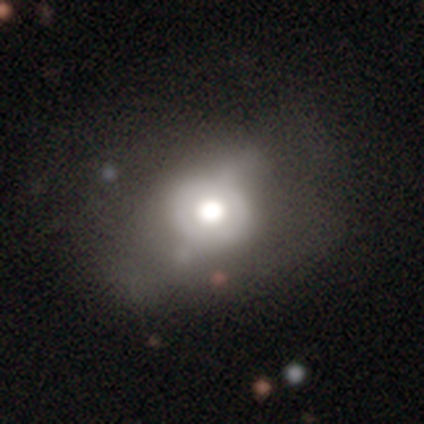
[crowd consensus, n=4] smooth-or-featured: featured or disk: 75% | smooth: 25% | star or artifact: 0%
  disk-edge-on: no: 100% | yes: 0%
    bar: no: 67% | weak: 33% | strong: 0%
    has-spiral-arms: no: 67% | yes: 33%
    bulge-size: moderate: 67% | large: 33% | dominant: 0% | small: 0% | none: 0%
  merging: none: 75% | minor disturbance: 25% | major disturbance: 0% | merger: 0%